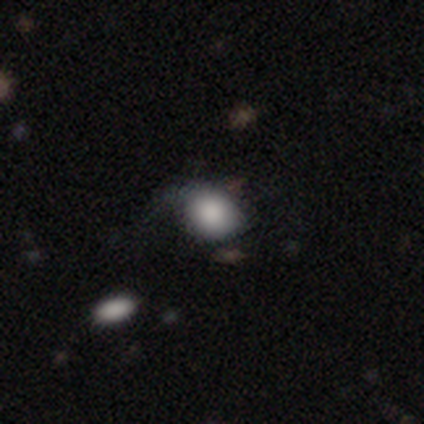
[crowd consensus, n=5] Smooth or featured?
  - smooth: 60% *
  - featured or disk: 40%
  - star or artifact: 0%
How rounded?
  - round: 67% *
  - in between: 33%
  - cigar-shaped: 0%
Merging?
  - none: 60% *
  - minor disturbance: 20%
  - major disturbance: 20%
  - merger: 0%